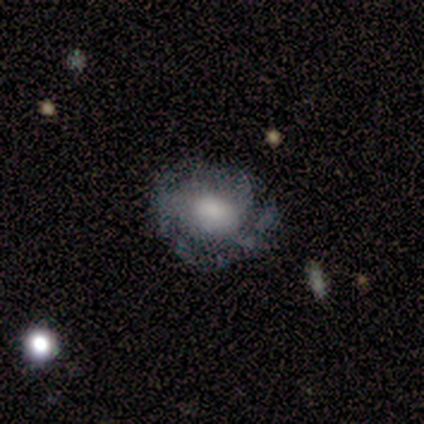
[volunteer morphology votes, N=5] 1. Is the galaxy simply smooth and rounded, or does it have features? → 80% featured or disk, 20% smooth, 0% star or artifact.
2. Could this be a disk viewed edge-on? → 100% no, 0% yes.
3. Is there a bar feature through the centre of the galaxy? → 75% no, 25% weak, 0% strong.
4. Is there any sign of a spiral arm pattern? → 100% yes, 0% no.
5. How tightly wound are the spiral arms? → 75% tight, 25% loose, 0% medium.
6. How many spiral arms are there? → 50% 2, 25% 1, 25% can't tell, 0% 3, 0% 4, 0% more than 4.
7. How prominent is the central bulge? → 75% moderate, 25% small, 0% dominant, 0% large, 0% none.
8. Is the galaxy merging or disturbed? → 80% none, 20% minor disturbance, 0% major disturbance, 0% merger.